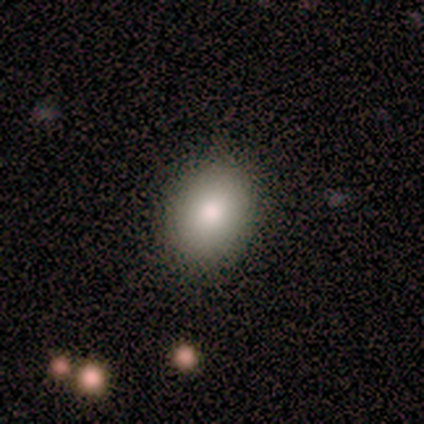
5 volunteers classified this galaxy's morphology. Smooth or featured? smooth (60%)
How rounded? in between (67%)
Merging? none (75%)